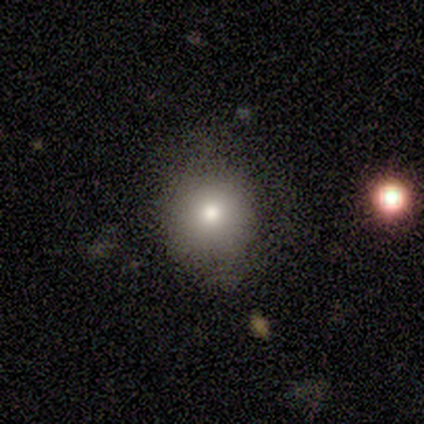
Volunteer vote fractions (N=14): Smooth or featured?
  - smooth: 86% *
  - star or artifact: 14%
  - featured or disk: 0%
How rounded?
  - round: 83% *
  - in between: 17%
  - cigar-shaped: 0%
Merging?
  - none: 58% *
  - minor disturbance: 33%
  - major disturbance: 8%
  - merger: 0%